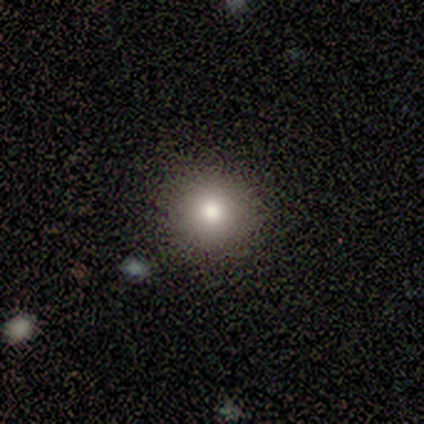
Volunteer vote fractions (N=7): Smooth or featured? smooth (100%)
How rounded? round (86%)
Merging? none (86%)